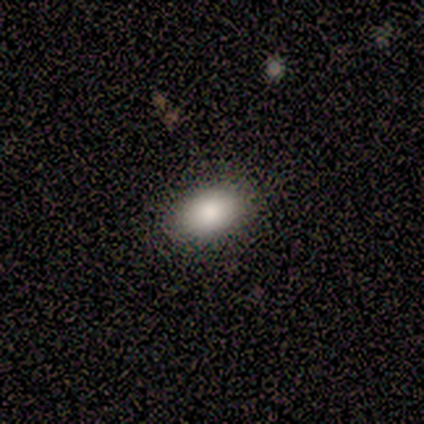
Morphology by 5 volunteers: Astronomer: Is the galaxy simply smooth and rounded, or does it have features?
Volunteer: smooth — 100%.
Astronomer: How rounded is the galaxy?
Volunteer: in between — 100%.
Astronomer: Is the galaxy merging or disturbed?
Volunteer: none — 100%.